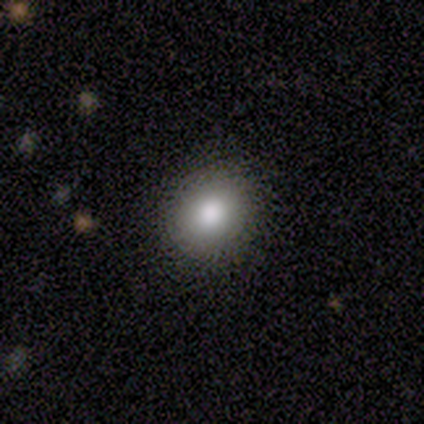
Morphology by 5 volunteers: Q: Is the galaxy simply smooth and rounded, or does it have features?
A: smooth — 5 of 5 (100%).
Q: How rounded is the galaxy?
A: round — 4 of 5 (80%).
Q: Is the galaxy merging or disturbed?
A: none — 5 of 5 (100%).